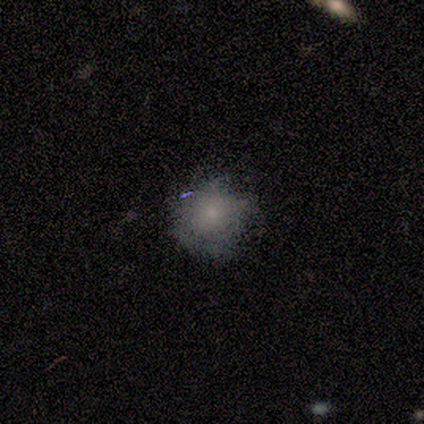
A smooth galaxy with no disk features (100%) that is round (100%). Merging: none (100%).